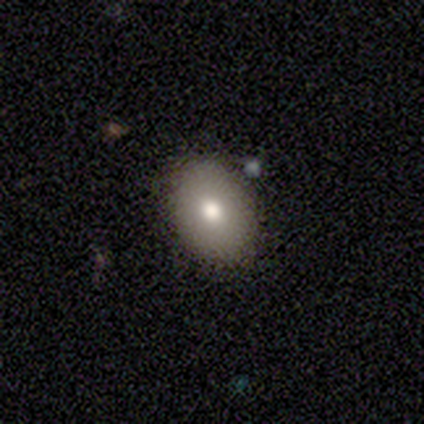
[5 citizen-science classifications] Morphology: type=smooth (80%); roundness=in between (75%); merging=none (60%).